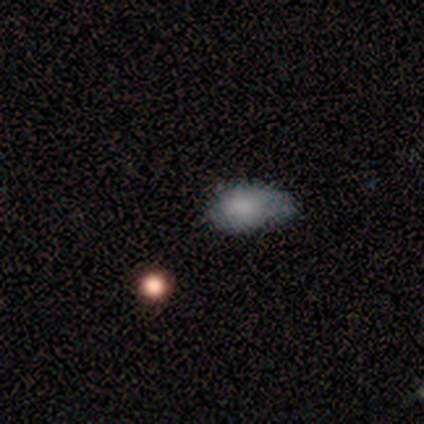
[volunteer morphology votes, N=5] Q: Smooth or featured?
A: smooth (80%); runner-up: featured or disk (20%)
Q: How rounded?
A: in between (100%)
Q: Merging?
A: none (80%); runner-up: minor disturbance (20%)